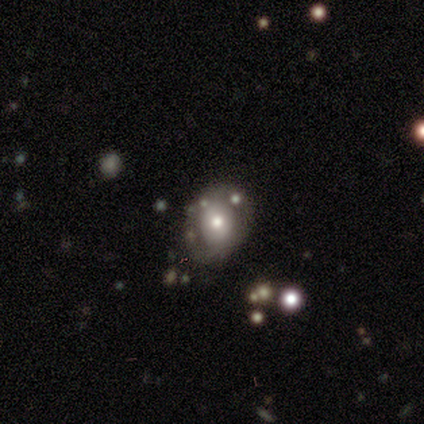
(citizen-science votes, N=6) Volunteers were most divided on "bar": no: 60%, weak: 40%, strong: 0%. More confident: edge-on disk — no (100%); spiral arm count — 2 (100%); bulge size — moderate (100%); smooth or featured — featured or disk (83%); merging — none (80%); spiral winding — tight (67%); spiral arms — yes (60%).